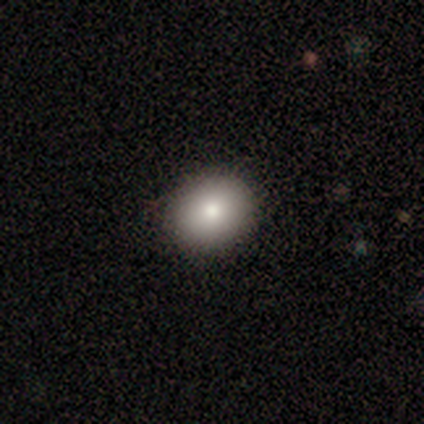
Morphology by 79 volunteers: Smooth or featured: smooth — 92% (featured or disk — 4%)
How rounded: round — 77% (in between — 23%)
Merging: none — 47% (minor disturbance — 1%)